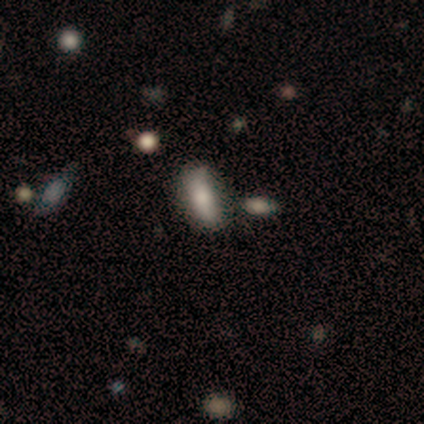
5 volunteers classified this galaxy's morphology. Smooth or featured: smooth — 80% (star or artifact — 20%)
How rounded: in between — 100%
Merging: none — 75% (merger — 25%)